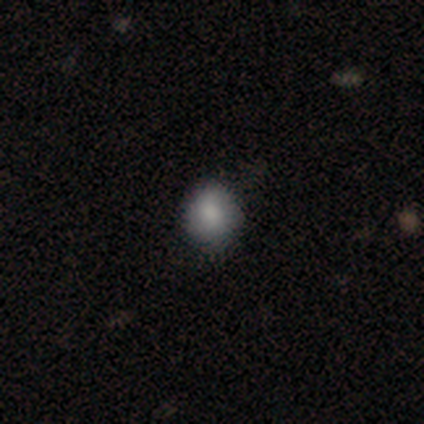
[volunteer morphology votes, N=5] Volunteers were most divided on "how rounded" (2-way tie): round: 50%, in between: 50%, cigar-shaped: 0%. More confident: smooth or featured — smooth (80%); merging — none (75%).